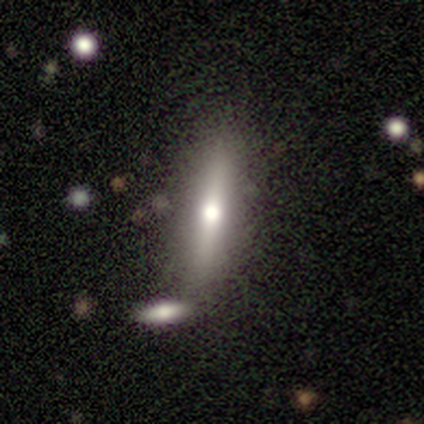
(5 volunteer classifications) A featured or disk galaxy (60%) viewed edge-on (67%) with a rounded central bulge (100%).

Vote fractions:
- Smooth or featured? featured or disk: 60% / smooth: 20% / star or artifact: 20%
- Edge-on disk? yes: 67% / no: 33%
- Edge-on bulge? rounded: 100% / boxy: 0% / none: 0%
- Merging? none: 100% / minor disturbance: 0% / major disturbance: 0% / merger: 0%